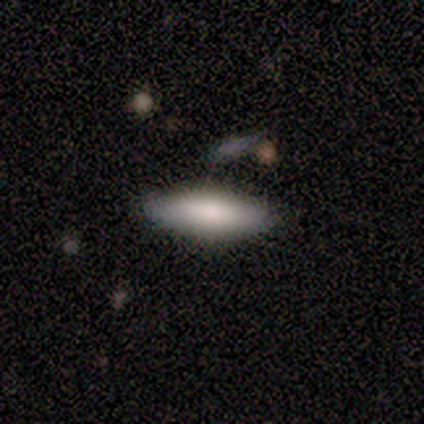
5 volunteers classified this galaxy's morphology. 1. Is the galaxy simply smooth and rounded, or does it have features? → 100% smooth, 0% featured or disk, 0% star or artifact.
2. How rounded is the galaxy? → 80% cigar-shaped, 20% in between, 0% round.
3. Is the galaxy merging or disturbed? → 80% none, 20% minor disturbance, 0% major disturbance, 0% merger.